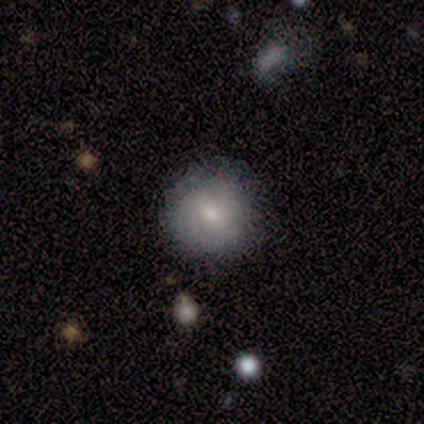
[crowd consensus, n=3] Smooth or featured? 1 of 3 (33%, tied with featured or disk and star or artifact) said smooth. How rounded? 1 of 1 (100%) said round. Merging? 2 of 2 (100%) said minor disturbance.